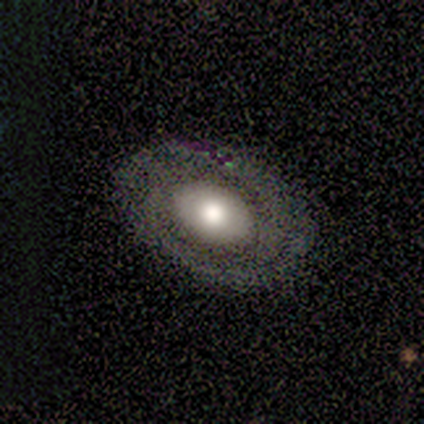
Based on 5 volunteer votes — featured or disk 100%, smooth 0%, star or artifact 0%. Down the decision tree: edge-on disk — no (100%); bar — no (60%); spiral arms — yes (80%); spiral arm count — 2 (50%, tied with can't tell); spiral winding — tight (75%); bulge size — moderate (60%); merging — none (100%).